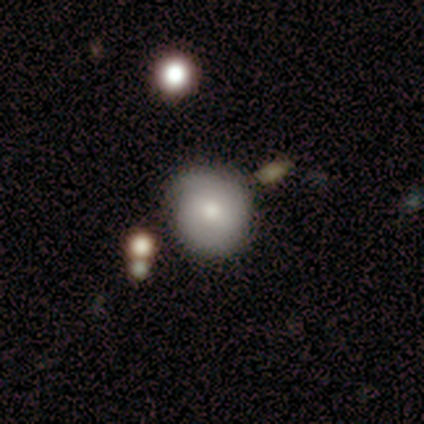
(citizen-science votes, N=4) Volunteers were most divided on "bar" (2-way tie): weak: 50%, no: 50%, strong: 0%; "spiral winding" (2-way tie): tight: 50%, loose: 50%, medium: 0%; "bulge size" (2-way tie): moderate: 50%, small: 50%, dominant: 0%, large: 0%, none: 0%. More confident: spiral arms — yes (100%); spiral arm count — 2 (100%); merging — none (100%); smooth or featured — featured or disk (75%); edge-on disk — no (67%).